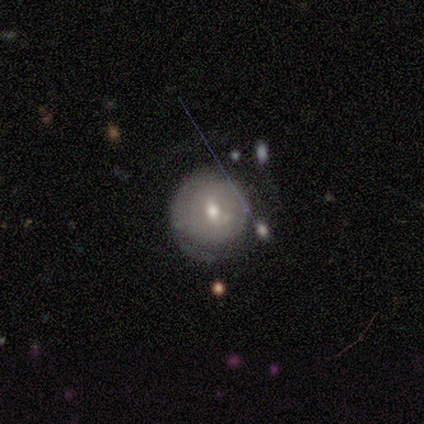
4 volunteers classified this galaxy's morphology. This is likely a smooth galaxy (75%). How rounded: clearly round (100%). Merging: likely none (67%).